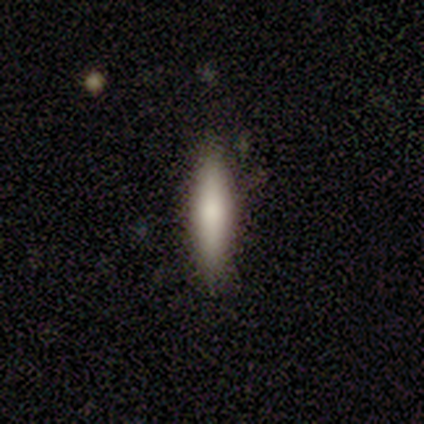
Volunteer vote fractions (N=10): A smooth galaxy with no disk features (50%, tied with featured or disk) that is cigar-shaped (80%).

Vote fractions:
- Smooth or featured? smooth: 50% (tied) / featured or disk: 50% (tied) / star or artifact: 0%
- How rounded? cigar-shaped: 80% / in between: 20% / round: 0%
- Merging? none: 60% / minor disturbance: 30% / merger: 10% / major disturbance: 0%